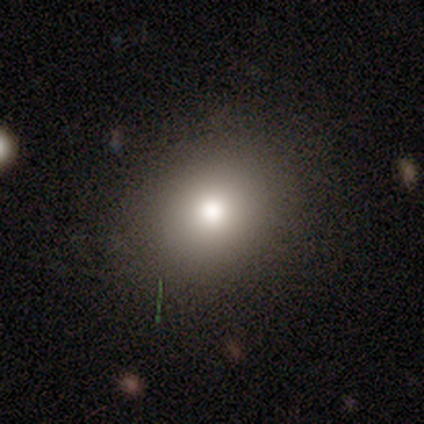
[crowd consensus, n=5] Smooth or featured? smooth (100%)
How rounded? round (100%)
Merging? none (60%)